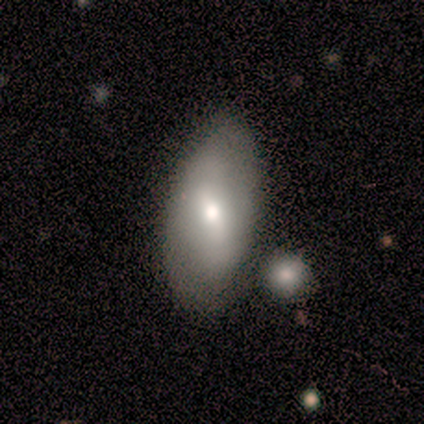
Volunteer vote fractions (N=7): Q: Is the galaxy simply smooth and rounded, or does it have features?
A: smooth — 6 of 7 (86%).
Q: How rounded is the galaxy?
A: in between — 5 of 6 (83%).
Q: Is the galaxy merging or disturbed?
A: none — 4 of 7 (57%).